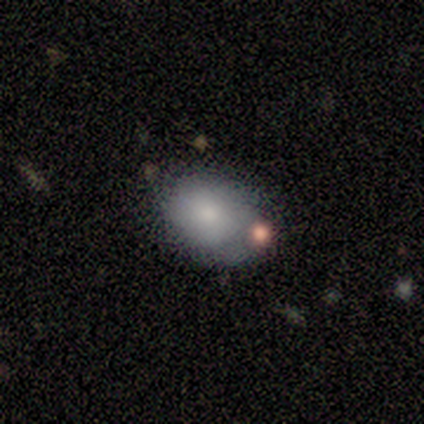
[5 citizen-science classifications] Q: Smooth or featured?
A: smooth (60%); runner-up: featured or disk (40%)
Q: How rounded?
A: in between (67%); runner-up: round (33%)
Q: Merging?
A: none (40%); runner-up: minor disturbance (20%)